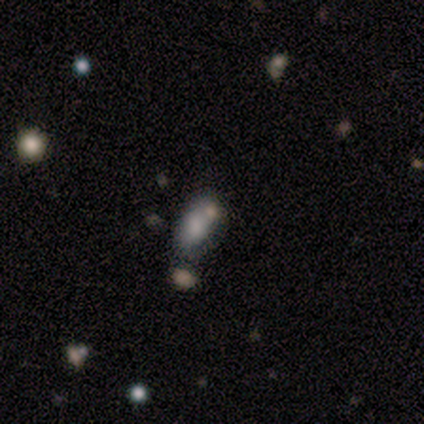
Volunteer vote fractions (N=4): A smooth galaxy with no disk features (50%) that is in between round and cigar-shaped (100%).

Vote fractions:
- Smooth or featured? smooth: 50% / featured or disk: 25% / star or artifact: 25%
- How rounded? in between: 100% / round: 0% / cigar-shaped: 0%
- Merging? none: 33% (tied) / minor disturbance: 33% (tied) / merger: 33% (tied) / major disturbance: 0%